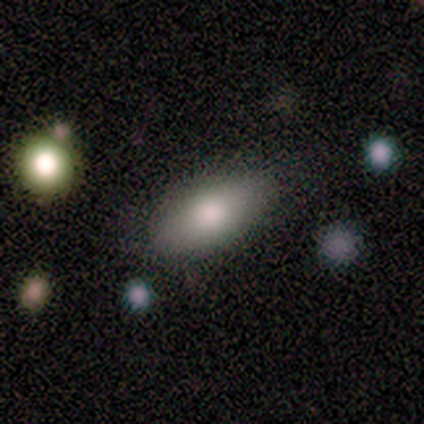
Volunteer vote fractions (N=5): Volunteers were most divided on "smooth or featured": smooth: 80%, featured or disk: 20%, star or artifact: 0%. More confident: how rounded — in between (100%); merging — none (100%).